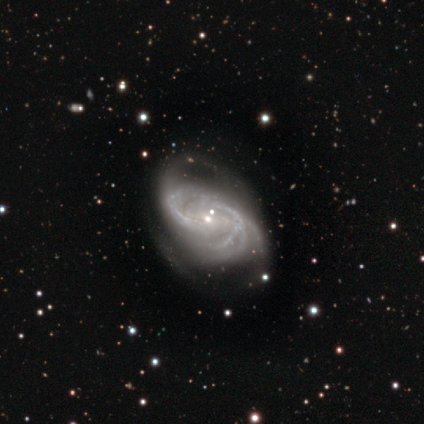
Smooth or featured: featured or disk — 100%
Edge-on disk: no — 100%
Bar: weak — 60% (no — 40%)
Spiral arms: yes — 100%
Spiral winding: medium — 80% (tight — 20%)
Spiral arm count: 2 — 40% (tied with can't tell — 40%)
Bulge size: small — 60% (moderate — 20%)
Merging: major disturbance — 40% (none — 20%)